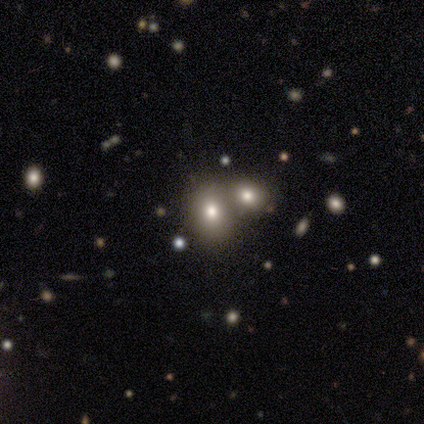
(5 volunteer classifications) Q: Smooth or featured?
A: smooth (80%); runner-up: star or artifact (20%)
Q: How rounded?
A: in between (75%); runner-up: round (25%)
Q: Merging?
A: minor disturbance (50%); runner-up: major disturbance (25%)